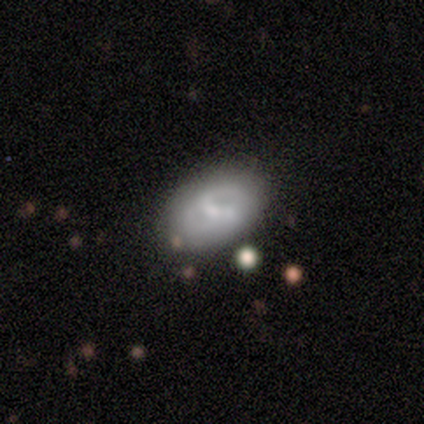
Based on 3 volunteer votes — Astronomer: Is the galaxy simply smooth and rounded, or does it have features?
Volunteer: featured or disk — 100%.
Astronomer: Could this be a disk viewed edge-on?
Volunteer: no — 100%.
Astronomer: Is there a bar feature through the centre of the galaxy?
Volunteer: strong — 33%, tied with weak and no at 33%.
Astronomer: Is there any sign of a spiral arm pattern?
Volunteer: no — 67%.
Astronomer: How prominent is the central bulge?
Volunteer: small — 67%.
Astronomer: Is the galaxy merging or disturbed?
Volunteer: none — 67%.